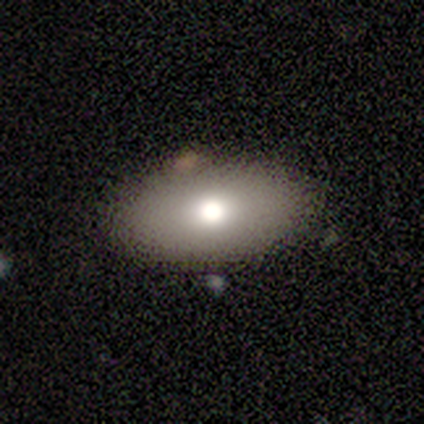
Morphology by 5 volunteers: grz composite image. It shows a smooth galaxy with no disk features (80%) that is in between round and cigar-shaped (100%). Merging: none (60%).